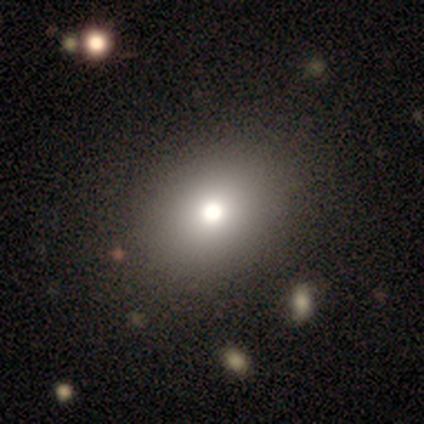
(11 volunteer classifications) A smooth galaxy with no disk features (64%) that is round (57%). Merging: none (89%).